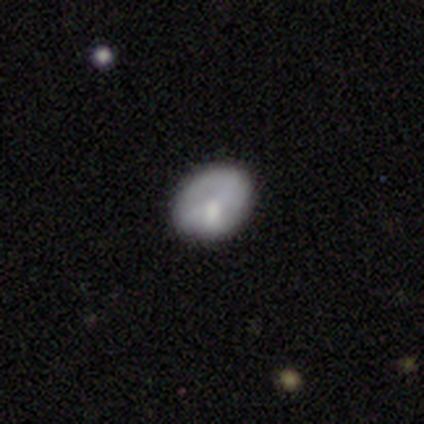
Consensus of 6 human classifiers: Smooth or featured? 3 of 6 (50%, tied with featured or disk) said smooth. How rounded? 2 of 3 (67%) said round. Merging? 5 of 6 (83%) said none.